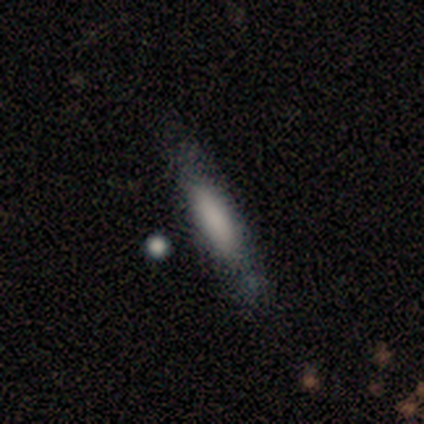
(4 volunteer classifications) smooth 75%, featured or disk 25%, star or artifact 0%. Down the decision tree: how rounded — cigar-shaped (100%); merging — none (75%).